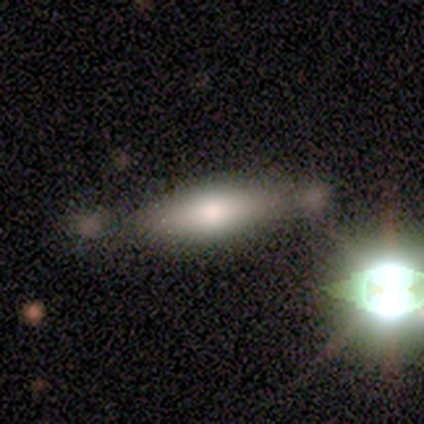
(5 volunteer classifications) Smooth or featured? smooth (100%)
How rounded? in between (80%)
Merging? none (40%, tied with merger)